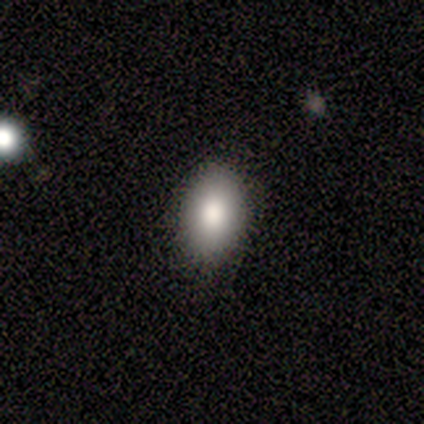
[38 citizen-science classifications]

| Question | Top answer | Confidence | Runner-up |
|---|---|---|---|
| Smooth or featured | smooth | 95% | featured or disk (3%) |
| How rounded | in between | 94% | round (6%) |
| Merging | none | 86% | minor disturbance (11%) |